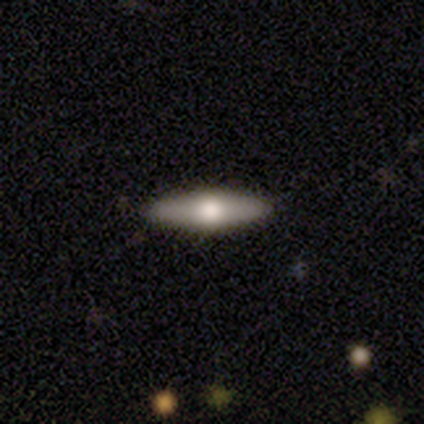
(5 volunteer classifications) Q: Smooth or featured?
A: smooth (60%); runner-up: featured or disk (40%)
Q: How rounded?
A: cigar-shaped (100%)
Q: Merging?
A: minor disturbance (60%); runner-up: none (40%)